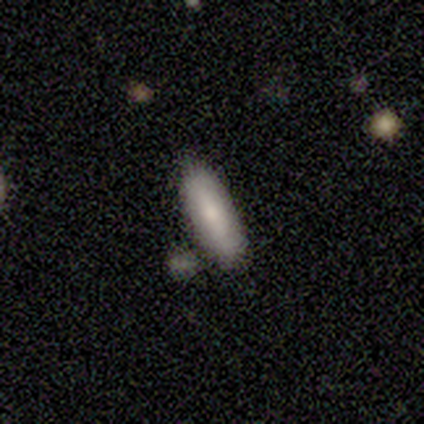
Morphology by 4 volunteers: Overall: smooth (75%). How rounded: in between (100%). Merging: none (50%, tied with minor disturbance).